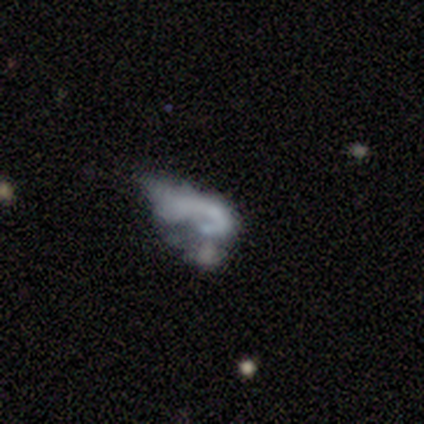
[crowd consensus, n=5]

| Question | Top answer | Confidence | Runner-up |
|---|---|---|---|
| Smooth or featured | featured or disk | 40% | tied: star or artifact (40%) |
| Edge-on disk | no | 100% | — |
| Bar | no | 100% | — |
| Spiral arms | yes | 50% | tied: no (50%) |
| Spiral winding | tight | 100% | — |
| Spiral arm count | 1 | 100% | — |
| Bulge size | small | 50% | tied: none (50%) |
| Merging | major disturbance | 100% | — |